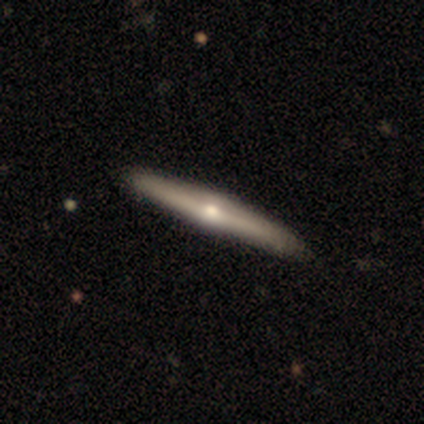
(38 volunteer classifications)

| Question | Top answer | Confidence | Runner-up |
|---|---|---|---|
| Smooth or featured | featured or disk | 68% | smooth (26%) |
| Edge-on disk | yes | 96% | no (4%) |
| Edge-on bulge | rounded | 88% | boxy (8%) |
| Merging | none | 83% | minor disturbance (14%) |